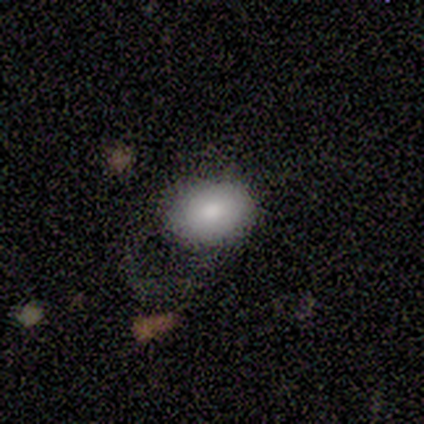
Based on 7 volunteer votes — Q: Smooth or featured?
A: smooth (86%); runner-up: featured or disk (14%)
Q: How rounded?
A: in between (83%); runner-up: round (17%)
Q: Merging?
A: major disturbance (43%); runner-up: none (29%)